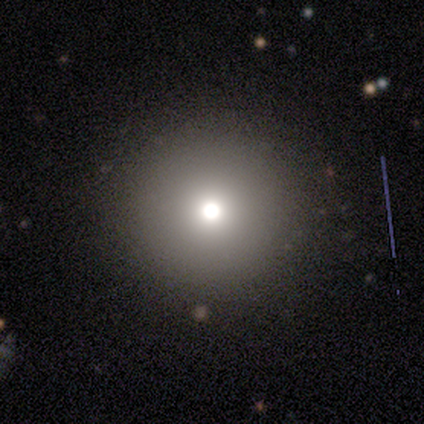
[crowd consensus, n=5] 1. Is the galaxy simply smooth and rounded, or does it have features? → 60% smooth, 20% featured or disk, 20% star or artifact.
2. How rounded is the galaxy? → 100% round, 0% in between, 0% cigar-shaped.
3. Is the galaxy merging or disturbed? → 100% none, 0% minor disturbance, 0% major disturbance, 0% merger.